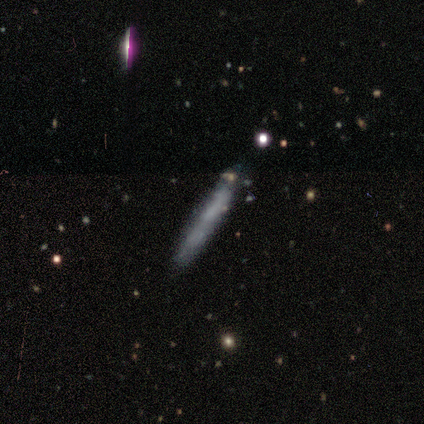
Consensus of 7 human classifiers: Smooth or featured?
  - smooth: 86% *
  - star or artifact: 14%
  - featured or disk: 0%
How rounded?
  - cigar-shaped: 100% *
  - round: 0%
  - in between: 0%
Merging?
  - none: 100% *
  - minor disturbance: 0%
  - major disturbance: 0%
  - merger: 0%